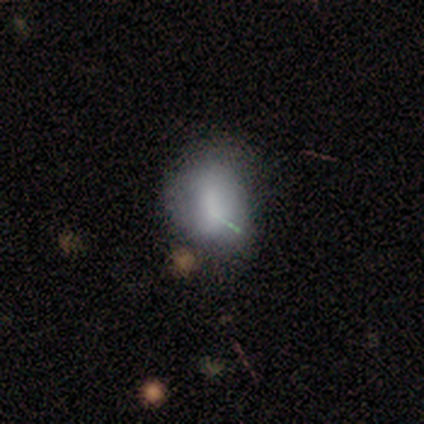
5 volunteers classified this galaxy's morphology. This appears to be a smooth galaxy with no disk features (100%) that is round (60%). Merging: none (80%).